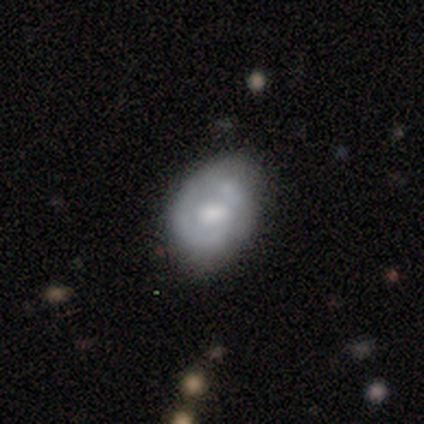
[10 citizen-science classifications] This is likely a smooth galaxy (70%). How rounded: possibly round (57%). Merging: possibly none (50%).